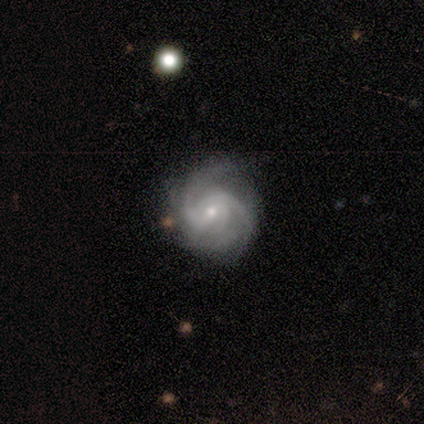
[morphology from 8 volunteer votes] Smooth or featured? 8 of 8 (100%) said featured or disk. Edge-on disk? 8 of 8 (100%) said no. Bar? 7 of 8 (88%) said no. Spiral arms? 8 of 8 (100%) said yes. Spiral winding? 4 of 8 (50%, tied with medium) said tight. Spiral arm count? 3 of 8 (38%) said 3. Bulge size? 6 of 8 (75%) said small. Merging? 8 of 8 (100%) said none.